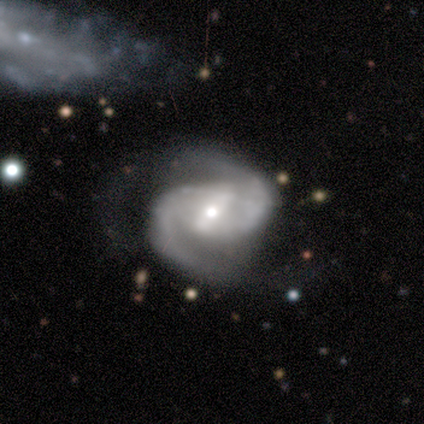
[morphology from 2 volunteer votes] smooth_or_featured: featured or disk (p=1.00)
disk_edge_on: no (p=1.00)
bar: strong (p=0.50) [tied with: weak p=0.50]
has_spiral_arms: yes (p=1.00)
spiral_winding: medium (p=0.50) [tied with: loose p=0.50]
spiral_arm_count: 2 (p=1.00)
bulge_size: small (p=1.00)
merging: minor disturbance (p=0.50) [tied with: major disturbance p=0.50]